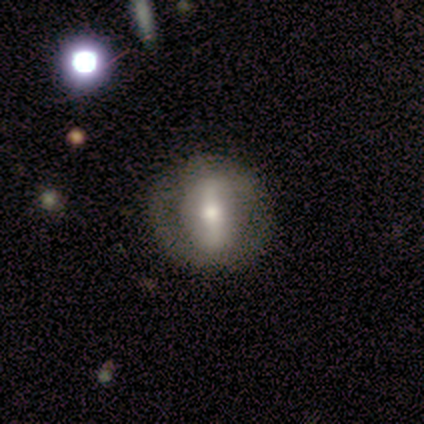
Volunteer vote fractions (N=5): Overall: featured or disk (60%; smooth 20%). Edge-on disk: no (67%; yes 33%). Bar: strong (50%, tied with weak). Spiral arms: no (100%). Bulge size: moderate (50%, tied with small). Merging: none (75%).